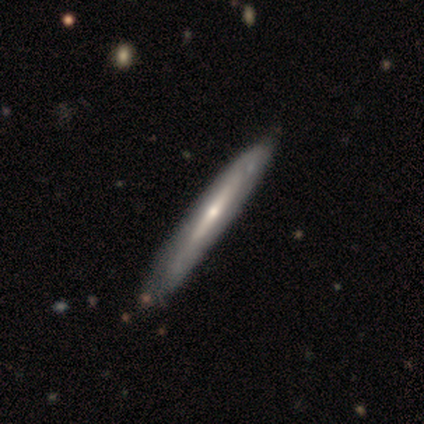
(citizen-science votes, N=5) Smooth or featured? featured or disk (100%)
Edge-on disk? yes (80%)
Edge-on bulge? rounded (75%)
Merging? none (80%)